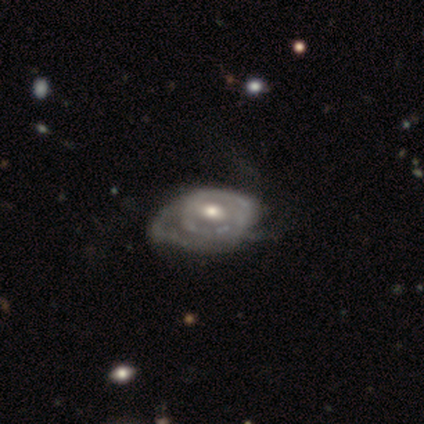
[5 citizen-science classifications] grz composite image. It shows a featured or disk galaxy (80%) with a weak bar (75%), tight (100%) spiral arms (75%) and a moderate central bulge (75%). Merging: minor disturbance (80%).